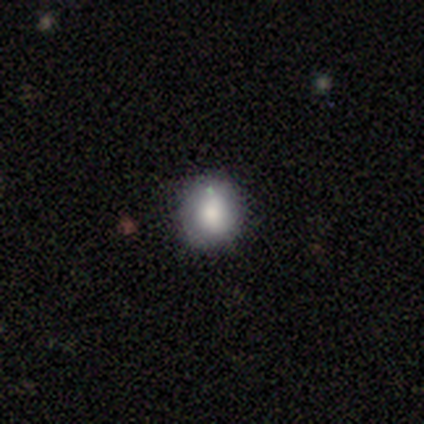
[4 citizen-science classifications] Smooth or featured? smooth (75%)
How rounded? round (100%)
Merging? none (100%)